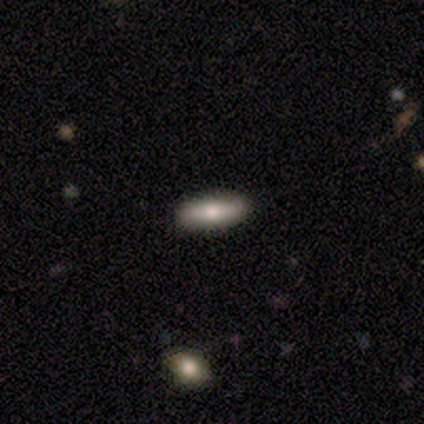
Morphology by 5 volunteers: Smooth or featured? featured or disk (60%)
Edge-on disk? no (100%)
Bar? strong (33%, tied with weak and no)
Spiral arms? no (100%)
Bulge size? moderate (67%)
Merging? none (100%)